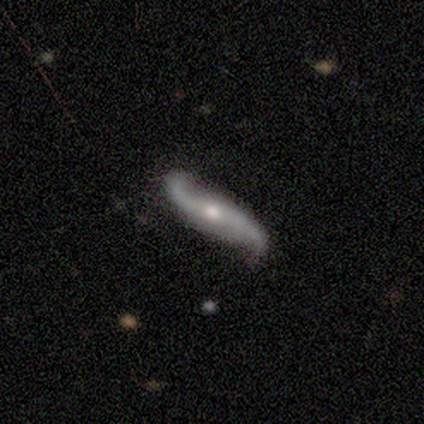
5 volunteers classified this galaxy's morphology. A featured or disk galaxy (100%) with no bar (80%), 2 (100%) loose (100%) spiral arms (100%) and a moderate central bulge (60%). Merging: none (100%).